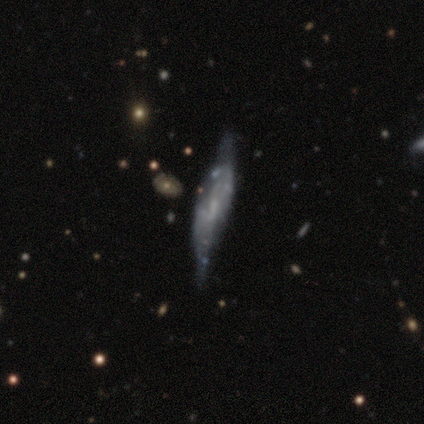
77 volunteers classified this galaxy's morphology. Smooth or featured?
  - featured or disk: 77% *
  - smooth: 17%
  - star or artifact: 6%
Edge-on disk?
  - yes: 51% *
  - no: 49%
Edge-on bulge?
  - none: 43% *
  - boxy: 30%
  - rounded: 27%
Merging?
  - none: 21% * (tied)
  - minor disturbance: 21% * (tied)
  - major disturbance: 10%
  - merger: 8%